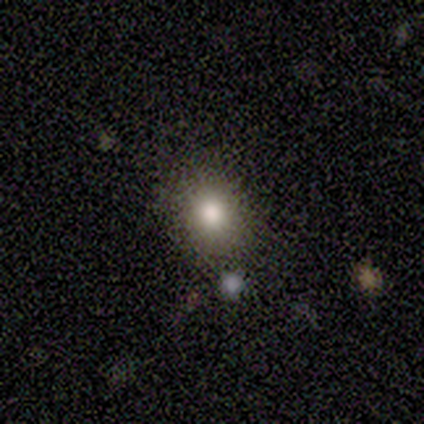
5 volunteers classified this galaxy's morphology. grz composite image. It shows a smooth galaxy with no disk features (80%) that is round (50%, tied with in between). Merging: none (100%).